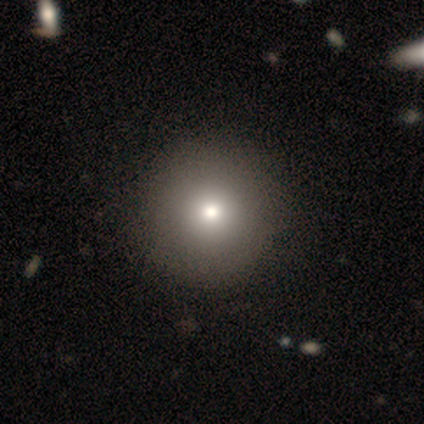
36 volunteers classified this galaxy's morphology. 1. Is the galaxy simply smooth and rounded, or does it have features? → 92% smooth, 6% featured or disk, 3% star or artifact.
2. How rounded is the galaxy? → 100% round, 0% in between, 0% cigar-shaped.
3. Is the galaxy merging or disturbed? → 69% none, 3% merger, 0% minor disturbance, 0% major disturbance.